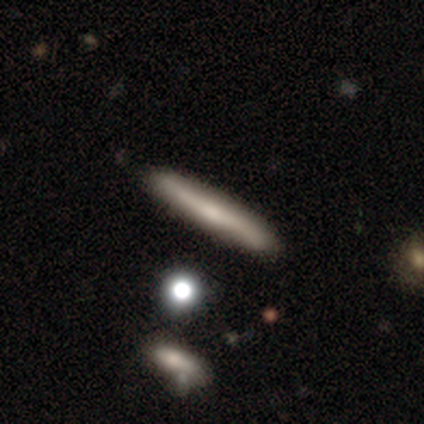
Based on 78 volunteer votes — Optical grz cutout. It shows a smooth galaxy with no disk features (60%) that is cigar-shaped (96%). Merging: none (51%).